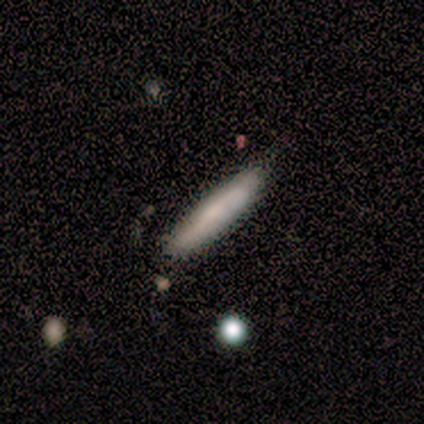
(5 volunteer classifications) Q: Smooth or featured?
A: smooth (100%)
Q: How rounded?
A: cigar-shaped (100%)
Q: Merging?
A: minor disturbance (80%); runner-up: none (20%)